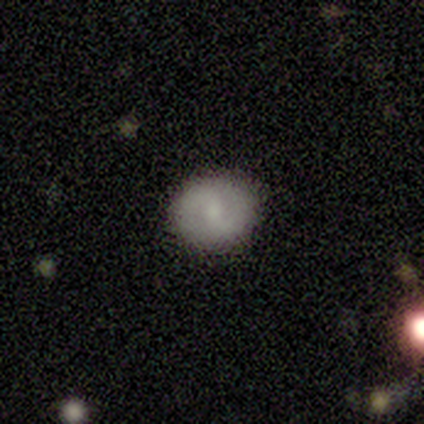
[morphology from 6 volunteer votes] A featured or disk galaxy (67%) with a weak bar (75%), 2 (100%) tight (33%, tied with medium and loose) spiral arms (75%) and a small central bulge (75%).

Vote fractions:
- Smooth or featured? featured or disk: 67% / smooth: 33% / star or artifact: 0%
- Edge-on disk? no: 100% / yes: 0%
- Bar? weak: 75% / strong: 25% / no: 0%
- Spiral arms? yes: 75% / no: 25%
- Spiral winding? tight: 33% (tied) / medium: 33% (tied) / loose: 33% (tied)
- Spiral arm count? 2: 100% / 1: 0% / 3: 0% / 4: 0% / more than 4: 0% / can't tell: 0%
- Bulge size? small: 75% / moderate: 25% / dominant: 0% / large: 0% / none: 0%
- Merging? none: 83% / minor disturbance: 17% / major disturbance: 0% / merger: 0%